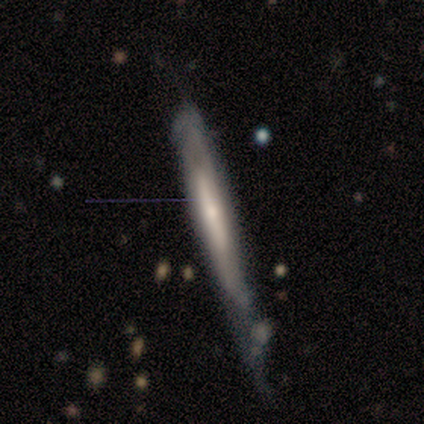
smooth_or_featured: featured or disk (p=0.60) [alt: smooth p=0.40]
disk_edge_on: yes (p=1.00)
edge_on_bulge: rounded (p=0.67) [alt: none p=0.33]
merging: none (p=0.40) [alt: minor disturbance p=0.20]